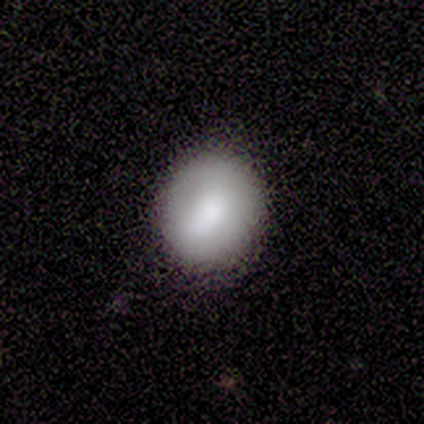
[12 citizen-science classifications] This is likely a smooth galaxy (75%). How rounded: likely round (67%). Merging: clearly none (100%).